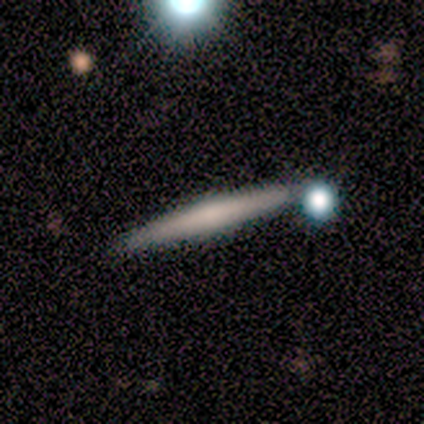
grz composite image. It shows a featured or disk galaxy (100%) viewed edge-on (80%) with no central bulge (50%, tied with rounded). Merging: none (60%).